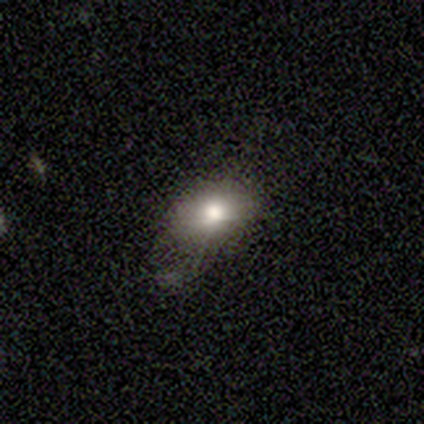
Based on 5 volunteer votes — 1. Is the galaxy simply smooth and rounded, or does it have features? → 80% smooth, 20% star or artifact, 0% featured or disk.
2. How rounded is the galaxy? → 100% in between, 0% round, 0% cigar-shaped.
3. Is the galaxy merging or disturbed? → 75% minor disturbance, 25% none, 0% major disturbance, 0% merger.